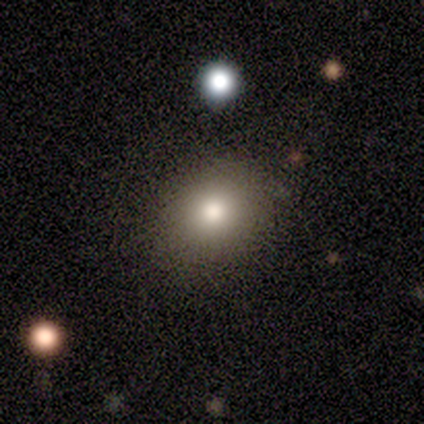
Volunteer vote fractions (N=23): A smooth galaxy with no disk features (83%) that is in between round and cigar-shaped (53%). Merging: none (79%).